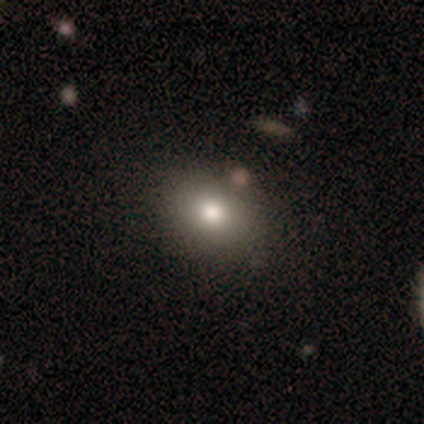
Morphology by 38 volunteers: Smooth or featured?
  - smooth: 76% *
  - star or artifact: 13%
  - featured or disk: 11%
How rounded?
  - in between: 55% *
  - round: 45%
  - cigar-shaped: 0%
Merging?
  - none: 82% *
  - minor disturbance: 15%
  - merger: 3%
  - major disturbance: 0%